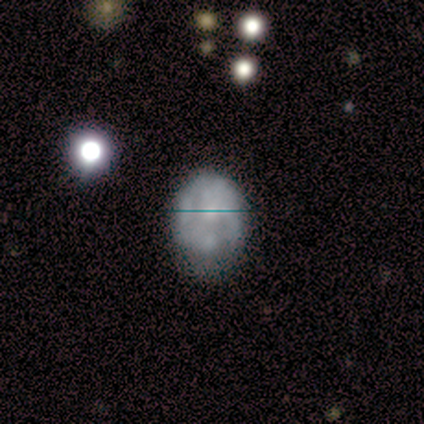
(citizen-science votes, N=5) smooth 60%, featured or disk 20%, star or artifact 20%. Down the decision tree: how rounded — round (67%); merging — minor disturbance (50%).